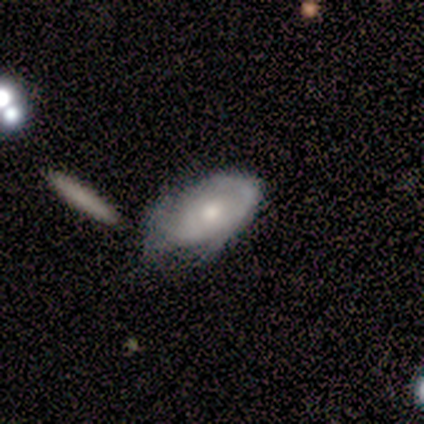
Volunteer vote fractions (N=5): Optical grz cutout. It shows a featured or disk galaxy (60%) with a weak bar (50%, tied with no), no spiral arms (100%) and a moderate central bulge (50%, tied with small). Merging: minor disturbance (80%).